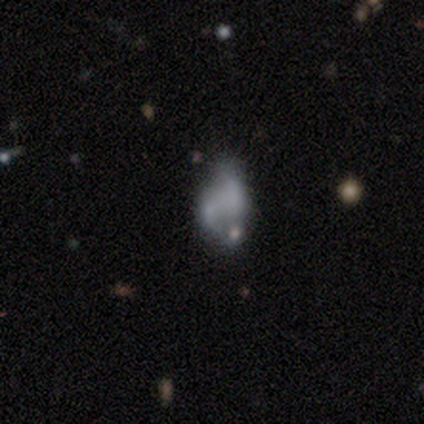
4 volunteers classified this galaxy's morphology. Smooth or featured?
  - smooth: 50% * (tied)
  - featured or disk: 50% * (tied)
  - star or artifact: 0%
How rounded?
  - in between: 50% * (tied)
  - cigar-shaped: 50% * (tied)
  - round: 0%
Merging?
  - merger: 50% *
  - none: 25%
  - minor disturbance: 25%
  - major disturbance: 0%